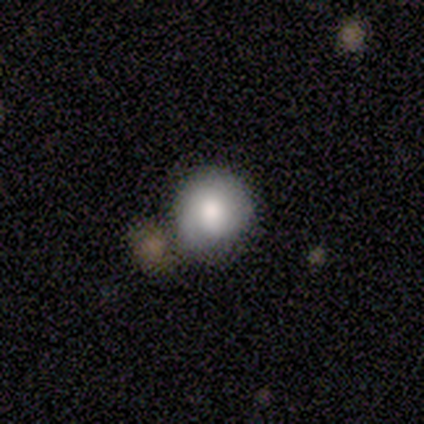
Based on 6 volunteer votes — smooth_or_featured: smooth (p=0.83) [alt: featured or disk p=0.17]
how_rounded: round (p=1.00)
merging: none (p=0.50) [tied with: minor disturbance p=0.50]